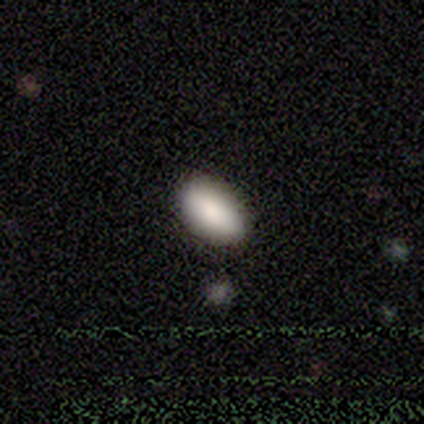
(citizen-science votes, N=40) Smooth or featured?
  - smooth: 90% *
  - star or artifact: 10%
  - featured or disk: 0%
How rounded?
  - in between: 97% *
  - cigar-shaped: 3%
  - round: 0%
Merging?
  - none: 94% *
  - minor disturbance: 6%
  - major disturbance: 0%
  - merger: 0%